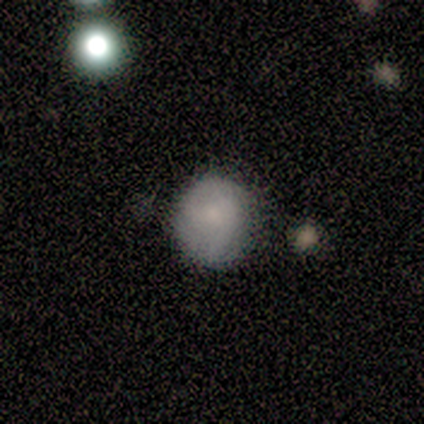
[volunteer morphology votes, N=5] This appears to be a smooth galaxy with no disk features (60%) that is round (100%). Merging: none (100%).